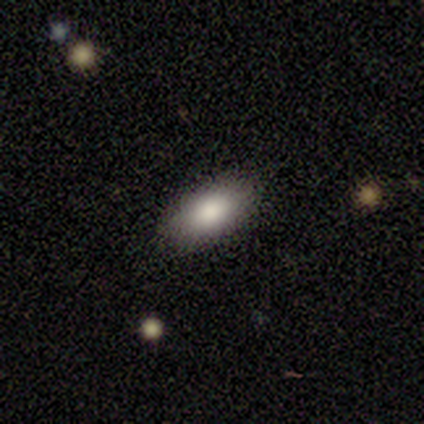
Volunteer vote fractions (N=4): Overall: smooth (100%). How rounded: in between (100%). Merging: none (75%).